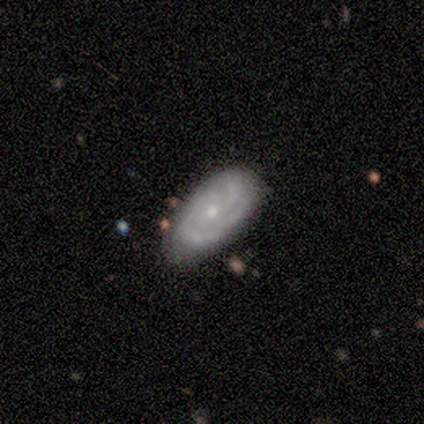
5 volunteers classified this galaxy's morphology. This appears to be a featured or disk galaxy (80%) with no bar (100%), 2 (100%) tight (50%, tied with medium) spiral arms (100%) and a small central bulge (100%). Merging: none (60%).